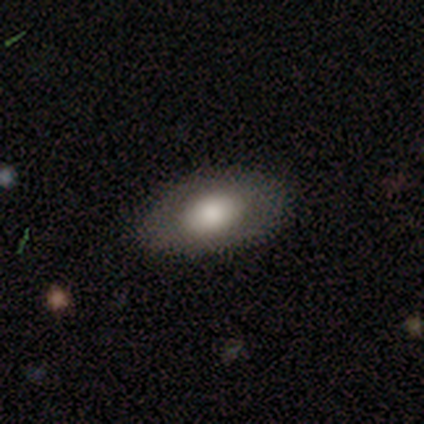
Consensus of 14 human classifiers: Q: Smooth or featured?
A: smooth (71%); runner-up: featured or disk (14%)
Q: How rounded?
A: in between (100%)
Q: Merging?
A: none (92%); runner-up: minor disturbance (8%)